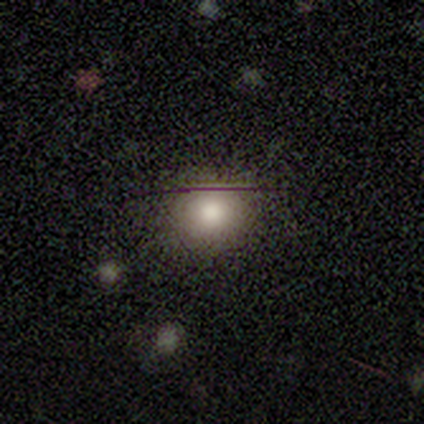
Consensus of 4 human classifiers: Overall: smooth (75%). How rounded: round (100%). Merging: none (67%; minor disturbance 33%).